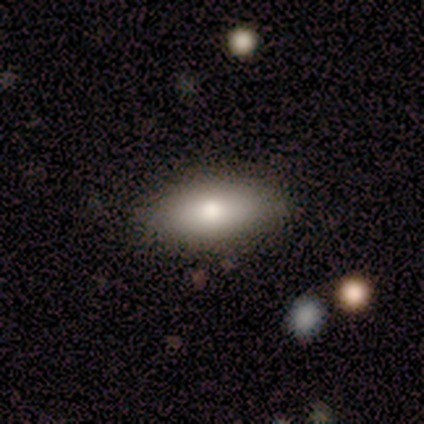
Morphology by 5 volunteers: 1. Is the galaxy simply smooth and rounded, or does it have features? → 40% featured or disk (tied), 40% star or artifact (tied), 20% smooth.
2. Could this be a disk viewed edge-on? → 100% yes, 0% no.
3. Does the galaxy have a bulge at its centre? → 50% none (tied), 50% rounded (tied), 0% boxy.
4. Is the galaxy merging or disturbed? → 100% none, 0% minor disturbance, 0% major disturbance, 0% merger.